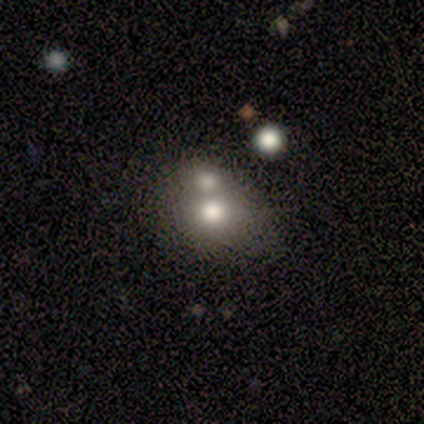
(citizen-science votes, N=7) smooth_or_featured: smooth (p=0.43) [tied with: featured or disk p=0.43]
how_rounded: round (p=0.67) [alt: in between p=0.33]
merging: none (p=0.50) [alt: merger p=0.33]